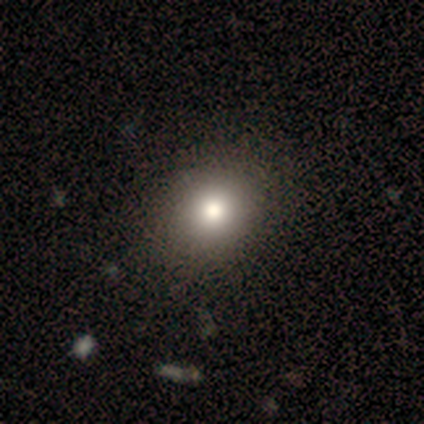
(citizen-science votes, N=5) Q: Smooth or featured?
A: smooth (60%); runner-up: star or artifact (40%)
Q: How rounded?
A: round (100%)
Q: Merging?
A: none (100%)